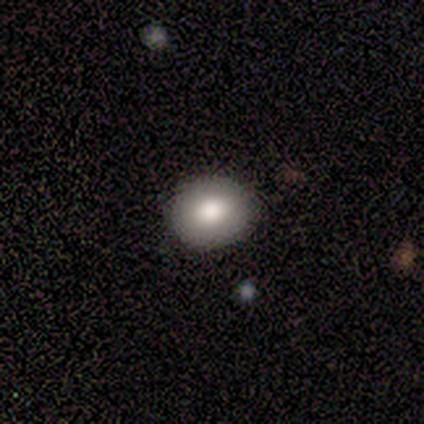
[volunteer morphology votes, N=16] Overall: smooth (88%). How rounded: round (79%). Merging: none (100%).